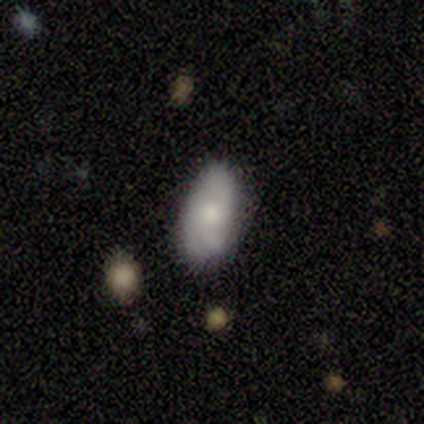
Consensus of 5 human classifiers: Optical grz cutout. It shows a smooth galaxy with no disk features (80%) that is in between round and cigar-shaped (100%). Merging: none (60%).